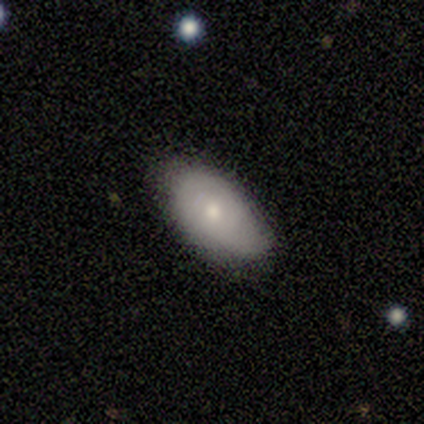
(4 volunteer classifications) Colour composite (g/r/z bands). It shows a smooth galaxy with no disk features (75%) that is in between round and cigar-shaped (100%). Merging: none (75%).